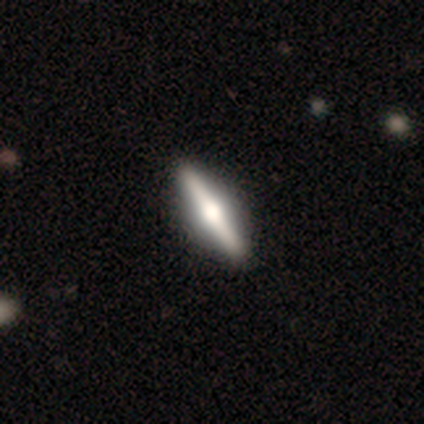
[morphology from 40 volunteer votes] Overall: featured or disk (78%). Edge-on disk: yes (100%). Edge-on bulge: rounded (94%). Merging: none (72%).